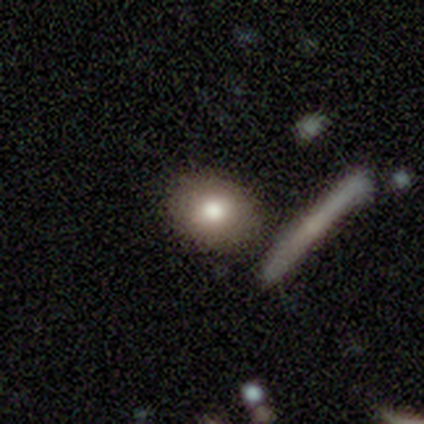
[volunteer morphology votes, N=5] Smooth or featured: smooth — 100%
How rounded: round — 80% (in between — 20%)
Merging: none — 100%